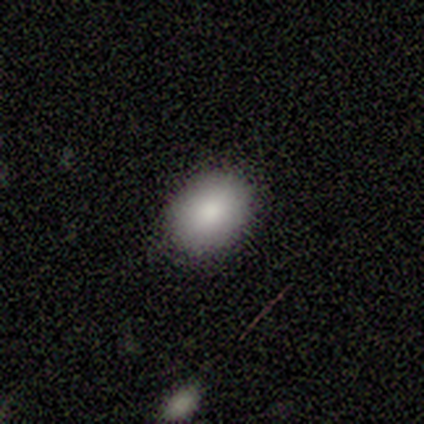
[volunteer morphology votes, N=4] Volunteers were most divided on "how rounded": in between: 75%, round: 25%, cigar-shaped: 0%. More confident: smooth or featured — smooth (100%); merging — none (100%).